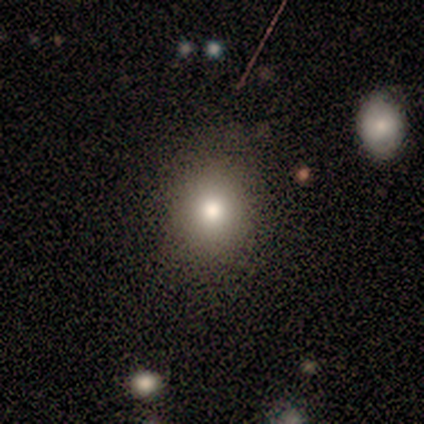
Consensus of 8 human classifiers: Volunteers were most divided on "how rounded": round: 57%, in between: 43%, cigar-shaped: 0%. More confident: merging — none (100%); smooth or featured — smooth (88%).